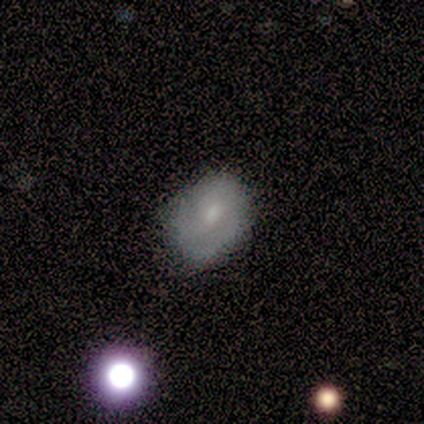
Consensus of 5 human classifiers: Smooth or featured: smooth — 80% (featured or disk — 20%)
How rounded: in between — 100%
Merging: none — 80% (minor disturbance — 20%)